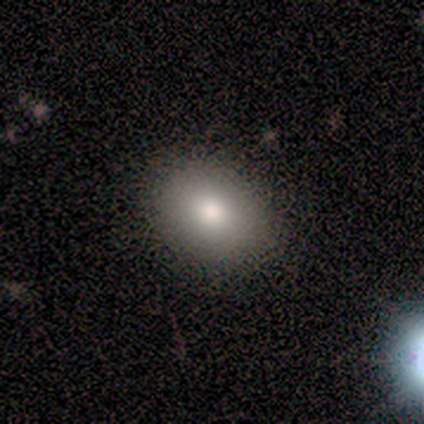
Smooth or featured? 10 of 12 (83%) said smooth. How rounded? 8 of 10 (80%) said in between. Merging? 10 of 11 (91%) said none.